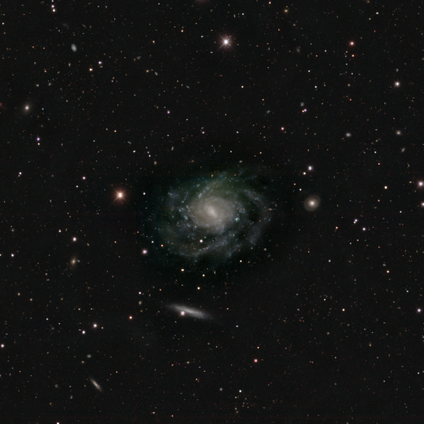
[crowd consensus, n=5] Smooth or featured? featured or disk (100%)
Edge-on disk? no (80%)
Bar? weak (75%)
Spiral arms? yes (100%)
Spiral winding? tight (75%)
Spiral arm count? 3 (50%, tied with can't tell)
Bulge size? moderate (50%)
Merging? none (100%)